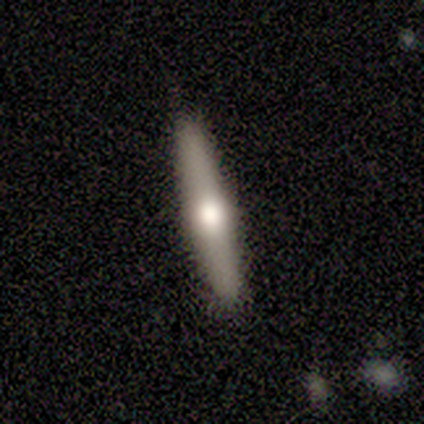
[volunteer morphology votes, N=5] Volunteers were most divided on "smooth or featured": smooth: 60%, featured or disk: 20%, star or artifact: 20%. More confident: how rounded — cigar-shaped (100%); merging — none (100%).